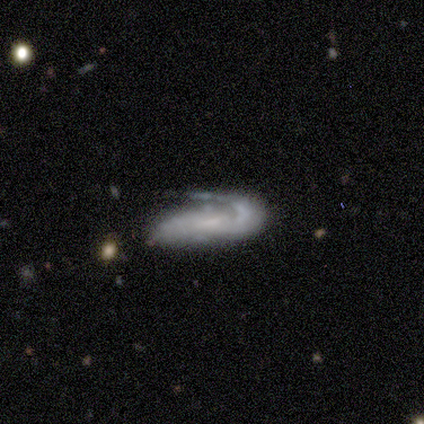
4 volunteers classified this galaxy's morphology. Smooth or featured? featured or disk (100%)
Edge-on disk? no (100%)
Bar? no (75%)
Spiral arms? yes (100%)
Spiral winding? medium (100%)
Spiral arm count? 1 (100%)
Bulge size? small (75%)
Merging? none (75%)